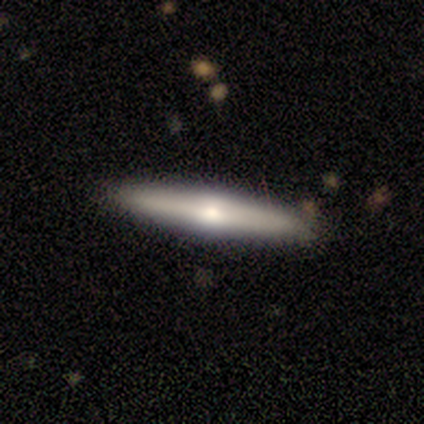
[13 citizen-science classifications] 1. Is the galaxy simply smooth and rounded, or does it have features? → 85% featured or disk, 15% smooth, 0% star or artifact.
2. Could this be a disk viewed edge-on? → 91% yes, 9% no.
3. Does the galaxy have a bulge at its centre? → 100% rounded, 0% boxy, 0% none.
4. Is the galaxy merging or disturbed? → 85% none, 15% minor disturbance, 0% major disturbance, 0% merger.